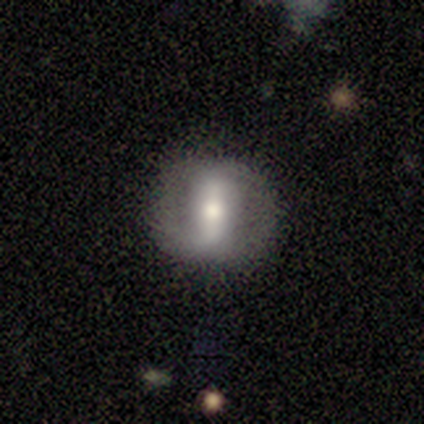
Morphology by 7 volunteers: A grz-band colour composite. It shows a featured or disk galaxy (71%) with a strong bar (80%), 2 (67%) loose (67%) spiral arms (60%) and a moderate central bulge (100%). Merging: none (86%).